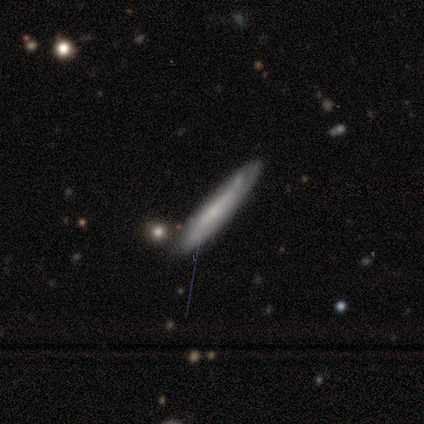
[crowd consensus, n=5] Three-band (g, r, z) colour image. It shows a smooth galaxy with no disk features (60%) that is cigar-shaped (100%). Merging: none (100%).